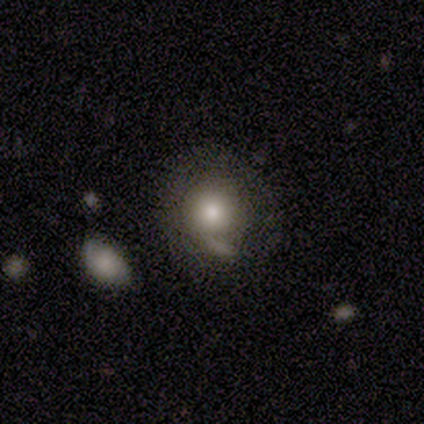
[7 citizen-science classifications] smooth 100%, featured or disk 0%, star or artifact 0%. Down the decision tree: how rounded — round (100%); merging — none (86%).